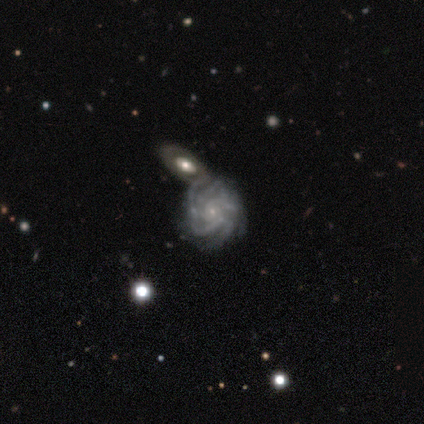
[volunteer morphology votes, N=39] featured or disk 95%, smooth 3%, star or artifact 3%. Down the decision tree: edge-on disk — no (100%); bar — no (86%); spiral arms — yes (95%); spiral arm count — more than 4 (51%); spiral winding — tight (77%); bulge size — small (84%); merging — none (50%).